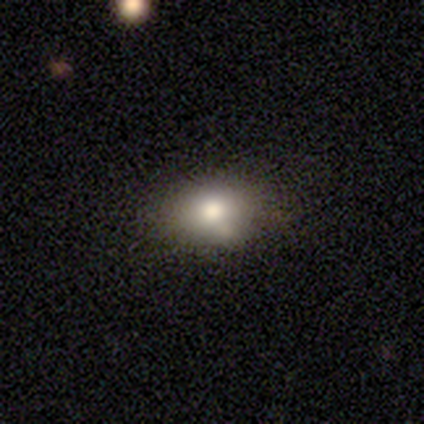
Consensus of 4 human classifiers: Volunteers were most divided on "smooth or featured": smooth: 75%, star or artifact: 25%, featured or disk: 0%. More confident: how rounded — in between (100%); merging — none (100%).